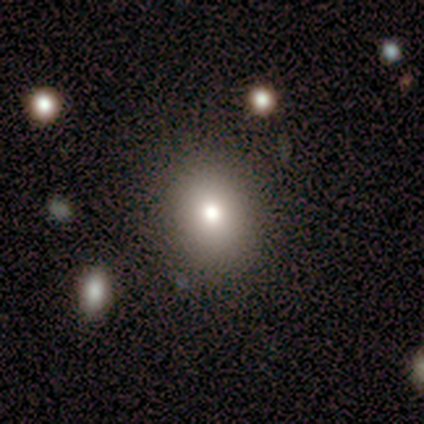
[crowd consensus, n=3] This is clearly a smooth galaxy (100%). How rounded: clearly round (100%). Merging: clearly none (100%).